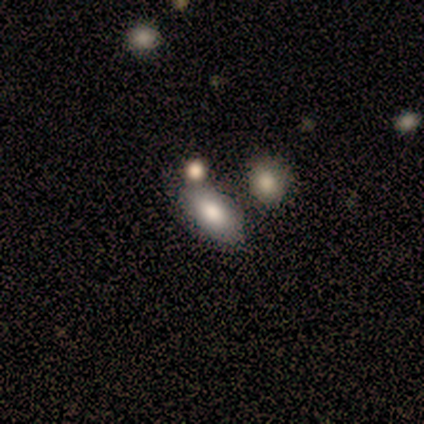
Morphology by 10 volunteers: This is clearly a smooth galaxy (100%). How rounded: clearly in between (100%). Merging: likely none (60%).